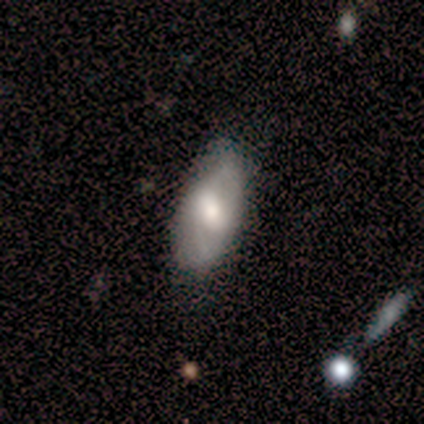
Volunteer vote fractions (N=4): A smooth galaxy with no disk features (75%) that is in between round and cigar-shaped (100%). Merging: none (100%).